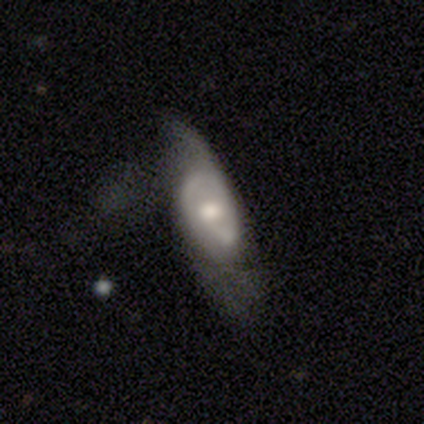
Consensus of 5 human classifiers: Smooth or featured? 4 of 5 (80%) said featured or disk. Edge-on disk? 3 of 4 (75%) said no. Bar? 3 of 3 (100%) said no. Spiral arms? 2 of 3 (67%) said no. Bulge size? 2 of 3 (67%) said moderate. Merging? 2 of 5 (40%, tied with major disturbance) said none.